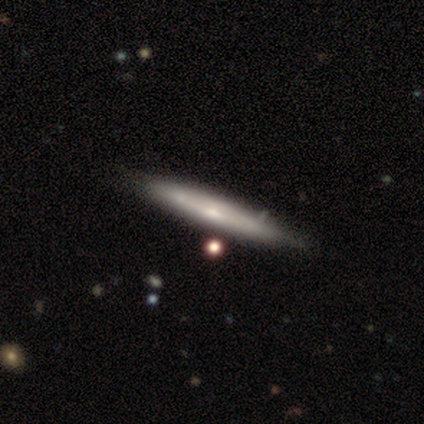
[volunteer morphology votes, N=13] Overall: featured or disk (54%; smooth 46%). Edge-on disk: yes (86%). Edge-on bulge: rounded (67%). Merging: none (77%).